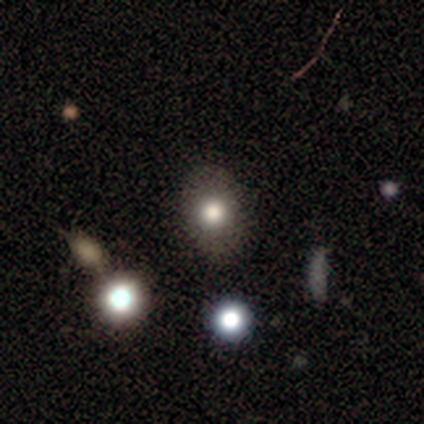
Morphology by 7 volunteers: smooth-or-featured: smooth: 71% | featured or disk: 29% | star or artifact: 0%
  how-rounded: in between: 100% | round: 0% | cigar-shaped: 0%
  merging: none: 86% | minor disturbance: 14% | major disturbance: 0% | merger: 0%